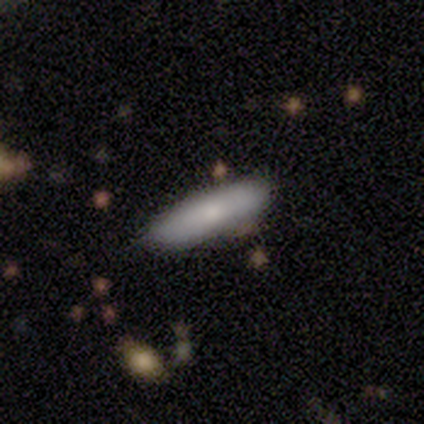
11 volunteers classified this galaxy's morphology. This appears to be a smooth galaxy with no disk features (73%) that is cigar-shaped (62%). Merging: none (90%).